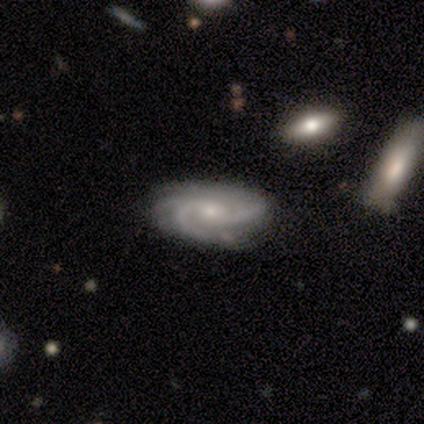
Smooth or featured?
  - featured or disk: 85% *
  - smooth: 10%
  - star or artifact: 5%
Edge-on disk?
  - no: 94% *
  - yes: 6%
Bar?
  - no: 74% *
  - weak: 23%
  - strong: 3%
Spiral arms?
  - yes: 100% *
  - no: 0%
Spiral winding?
  - tight: 45% * (tied)
  - medium: 45% * (tied)
  - loose: 10%
Spiral arm count?
  - 2: 42% *
  - 3: 32%
  - can't tell: 19%
  - 4: 6%
  - 1: 0%
  - more than 4: 0%
Bulge size?
  - small: 55% *
  - moderate: 39%
  - none: 6%
  - dominant: 0%
  - large: 0%
Merging?
  - none: 57% *
  - minor disturbance: 8%
  - major disturbance: 3%
  - merger: 3%